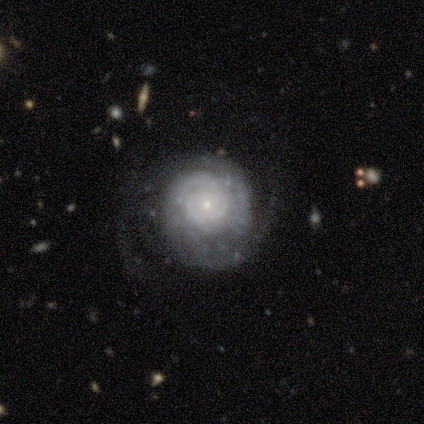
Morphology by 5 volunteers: Smooth or featured: featured or disk — 60% (smooth — 40%)
Edge-on disk: no — 100%
Bar: no — 100%
Spiral arms: yes — 100%
Spiral winding: tight — 67% (medium — 33%)
Spiral arm count: 2 — 100%
Bulge size: small — 100%
Merging: none — 60% (minor disturbance — 40%)